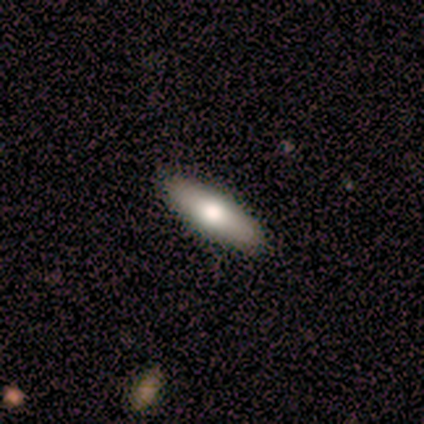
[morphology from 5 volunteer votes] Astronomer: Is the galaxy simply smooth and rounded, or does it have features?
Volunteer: smooth — 40%, tied with star or artifact at 40%.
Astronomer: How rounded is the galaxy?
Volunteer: in between — 50%, tied with cigar-shaped at 50%.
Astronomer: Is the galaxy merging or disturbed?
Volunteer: none — 100%.